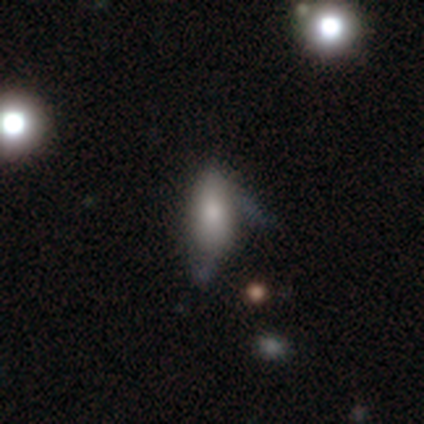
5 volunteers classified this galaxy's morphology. Smooth or featured? 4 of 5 (80%) said smooth. How rounded? 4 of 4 (100%) said in between. Merging? 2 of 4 (50%, tied with minor disturbance) said none.